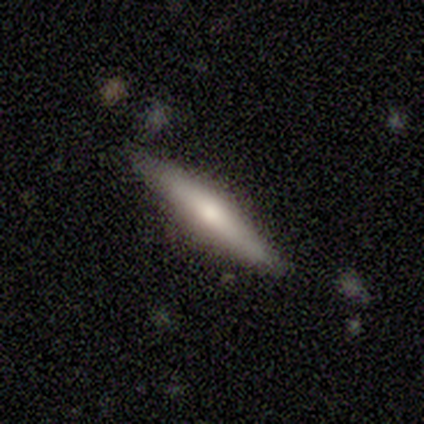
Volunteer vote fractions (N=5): Smooth or featured: smooth — 60% (featured or disk — 40%)
How rounded: cigar-shaped — 100%
Merging: none — 100%